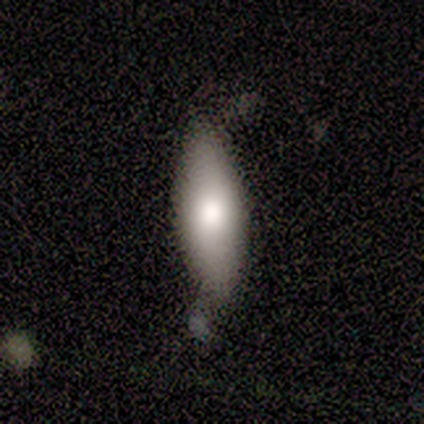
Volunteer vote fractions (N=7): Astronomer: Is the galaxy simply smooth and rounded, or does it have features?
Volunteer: smooth — 71%.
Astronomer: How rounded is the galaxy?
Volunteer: in between — 60% (runner-up: cigar-shaped, 40%).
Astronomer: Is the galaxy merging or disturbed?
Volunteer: none — 43%, tied with minor disturbance at 43%.